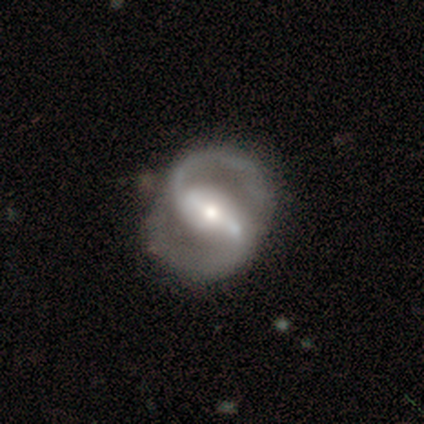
A featured or disk galaxy (91%) with a strong bar (75%), 2 (99%) medium (61%) spiral arms (100%) and a moderate central bulge (59%). Merging: none (42%).